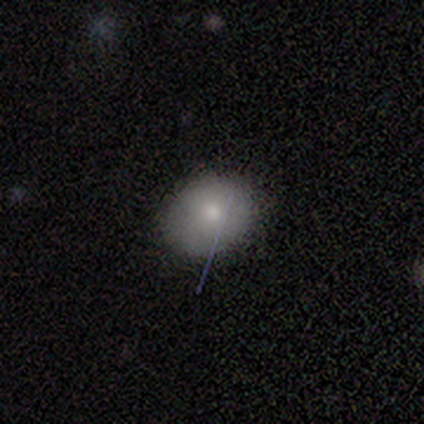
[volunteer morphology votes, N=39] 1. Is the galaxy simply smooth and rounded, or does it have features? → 85% smooth, 10% star or artifact, 5% featured or disk.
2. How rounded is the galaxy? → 61% round, 39% in between, 0% cigar-shaped.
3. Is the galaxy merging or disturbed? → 89% none, 11% minor disturbance, 0% major disturbance, 0% merger.